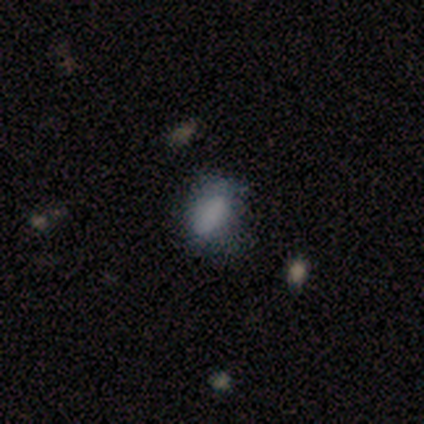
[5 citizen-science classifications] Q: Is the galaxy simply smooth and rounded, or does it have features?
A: smooth — 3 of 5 (60%).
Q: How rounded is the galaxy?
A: in between — 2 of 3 (67%).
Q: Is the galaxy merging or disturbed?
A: major disturbance — 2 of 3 (67%).